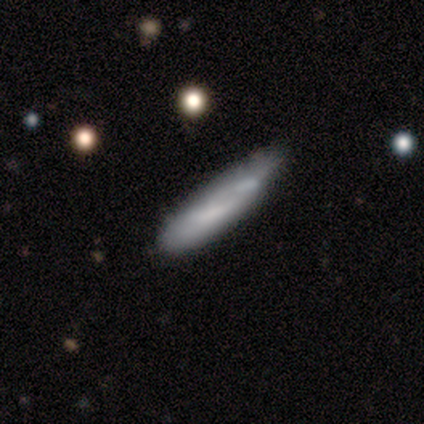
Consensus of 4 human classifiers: smooth_or_featured: smooth (p=0.50) [tied with: featured or disk p=0.50]
how_rounded: cigar-shaped (p=1.00)
merging: none (p=0.50) [tied with: minor disturbance p=0.50]